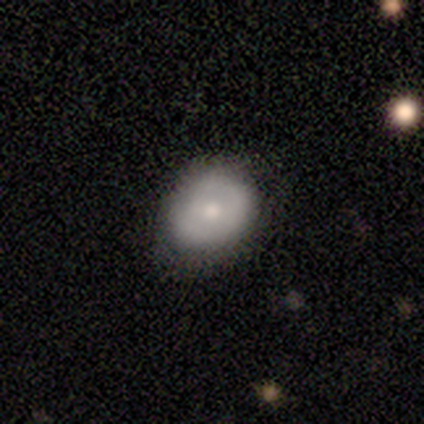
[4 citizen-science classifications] Smooth or featured?
  - featured or disk: 75% *
  - smooth: 25%
  - star or artifact: 0%
Edge-on disk?
  - no: 100% *
  - yes: 0%
Bar?
  - no: 100% *
  - strong: 0%
  - weak: 0%
Spiral arms?
  - no: 100% *
  - yes: 0%
Bulge size?
  - moderate: 67% *
  - small: 33%
  - dominant: 0%
  - large: 0%
  - none: 0%
Merging?
  - none: 75% *
  - minor disturbance: 25%
  - major disturbance: 0%
  - merger: 0%